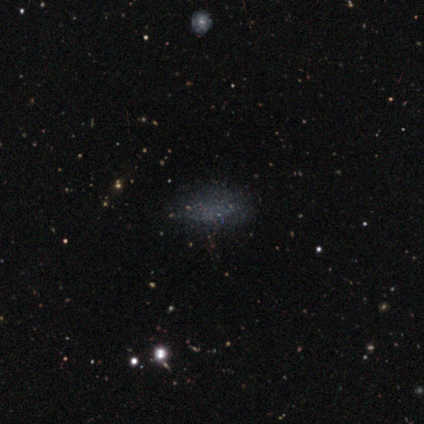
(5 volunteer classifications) smooth 60%, featured or disk 20%, star or artifact 20%. Down the decision tree: how rounded — in between (100%); merging — none (100%).